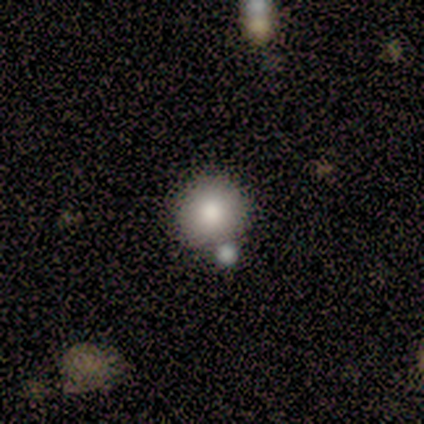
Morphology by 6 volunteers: This appears to be a smooth galaxy with no disk features (67%) that is round (100%). Merging: none (67%).